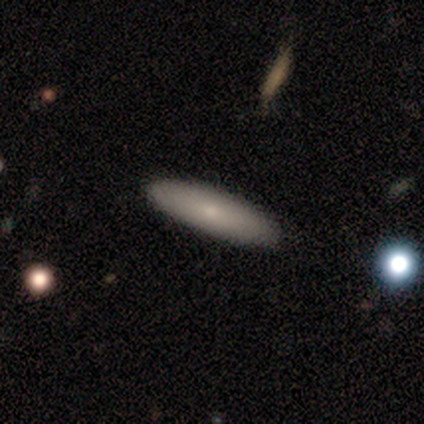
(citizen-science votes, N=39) A smooth galaxy with no disk features (82%) that is cigar-shaped (72%). Merging: none (92%).